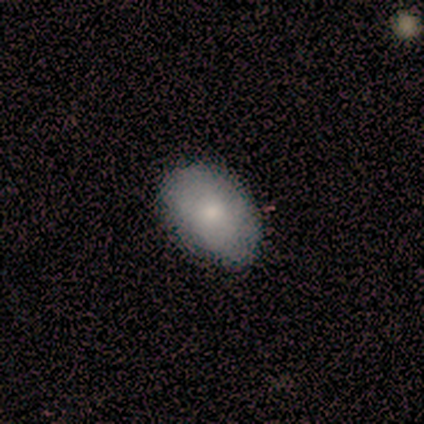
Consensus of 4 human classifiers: Volunteers were most divided on "smooth or featured": smooth: 75%, featured or disk: 25%, star or artifact: 0%. More confident: how rounded — in between (100%); merging — none (75%).